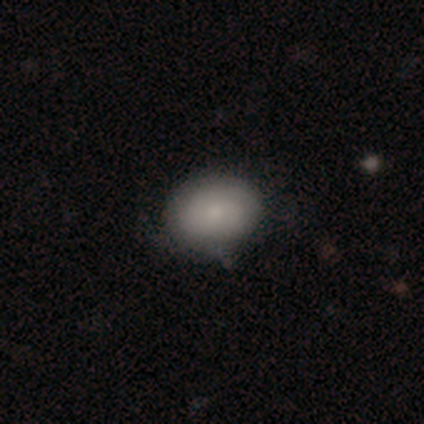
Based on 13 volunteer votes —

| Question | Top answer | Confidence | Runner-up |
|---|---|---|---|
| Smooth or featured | smooth | 69% | featured or disk (31%) |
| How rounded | in between | 67% | round (33%) |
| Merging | none | 92% | minor disturbance (8%) |